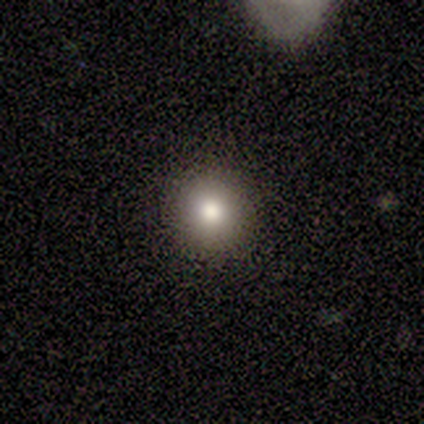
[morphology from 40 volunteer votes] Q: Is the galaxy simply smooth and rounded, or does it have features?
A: smooth — 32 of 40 (80%).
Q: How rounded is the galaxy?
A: round — 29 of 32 (91%).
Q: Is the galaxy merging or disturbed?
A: none — 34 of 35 (97%).